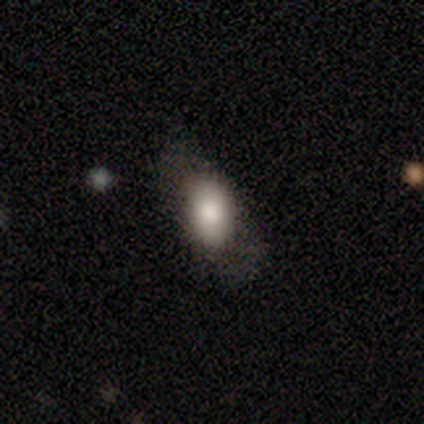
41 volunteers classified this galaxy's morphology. Smooth or featured: smooth — 76% (featured or disk — 15%)
How rounded: in between — 81% (cigar-shaped — 13%)
Merging: none — 59% (minor disturbance — 22%)